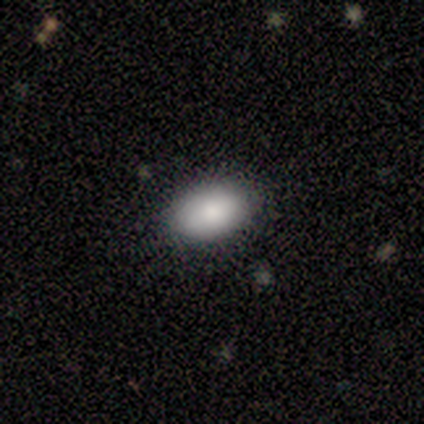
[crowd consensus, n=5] Smooth or featured? smooth (100%)
How rounded? in between (80%)
Merging? none (100%)